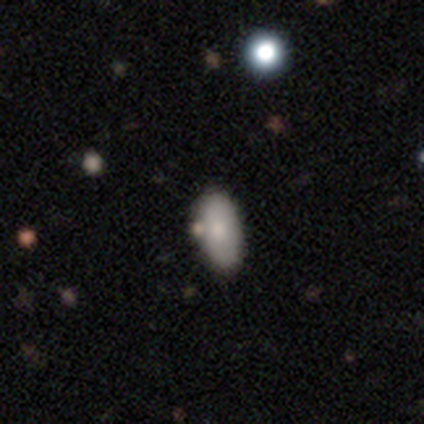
Smooth or featured: smooth — 100%
How rounded: in between — 100%
Merging: none — 60% (merger — 40%)